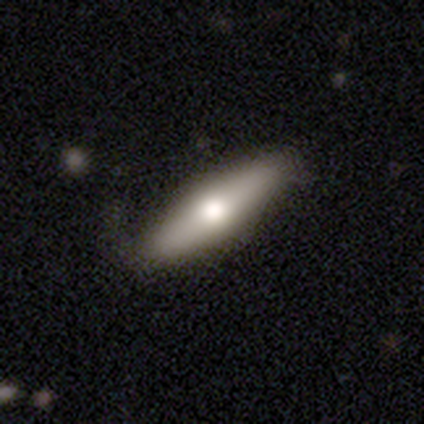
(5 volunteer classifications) Smooth or featured: smooth — 60% (featured or disk — 40%)
How rounded: cigar-shaped — 67% (in between — 33%)
Merging: minor disturbance — 60% (none — 40%)